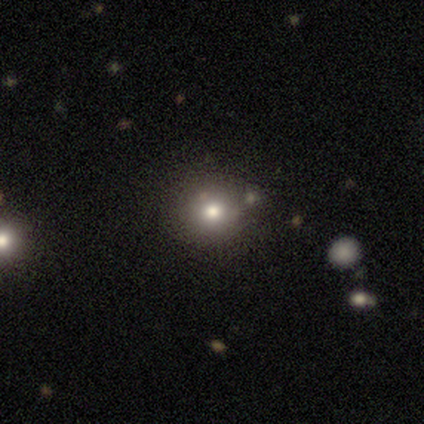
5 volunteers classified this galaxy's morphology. Smooth or featured? 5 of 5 (100%) said smooth. How rounded? 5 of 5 (100%) said round. Merging? 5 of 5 (100%) said none.